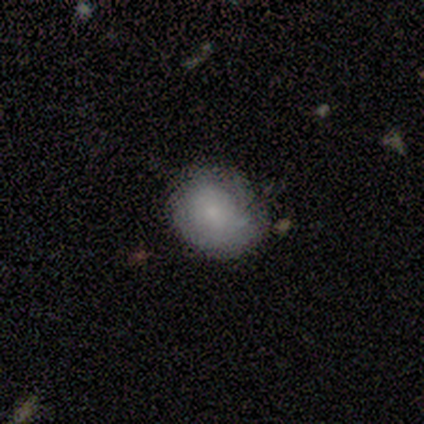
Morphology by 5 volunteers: A smooth galaxy with no disk features (60%) that is in between round and cigar-shaped (67%).

Vote fractions:
- Smooth or featured? smooth: 60% / featured or disk: 40% / star or artifact: 0%
- How rounded? in between: 67% / round: 33% / cigar-shaped: 0%
- Merging? none: 60% / minor disturbance: 40% / major disturbance: 0% / merger: 0%